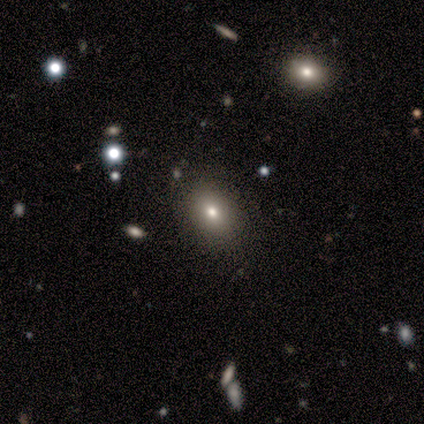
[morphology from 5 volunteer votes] smooth_or_featured: smooth (p=0.60) [alt: featured or disk p=0.20]
how_rounded: in between (p=0.67) [alt: round p=0.33]
merging: none (p=0.50) [alt: minor disturbance p=0.25]